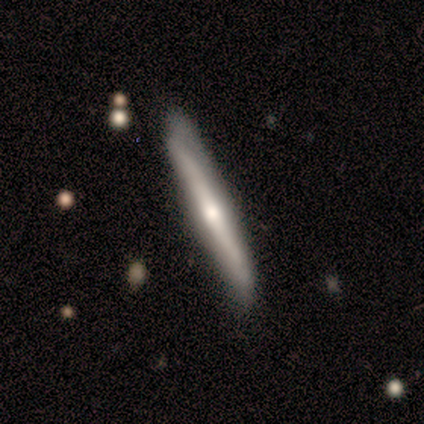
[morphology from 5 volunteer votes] type=featured or disk (80%); edge-on=yes (100%); edge-on bulge=rounded (100%); merging=none (40%, tied with minor disturbance).